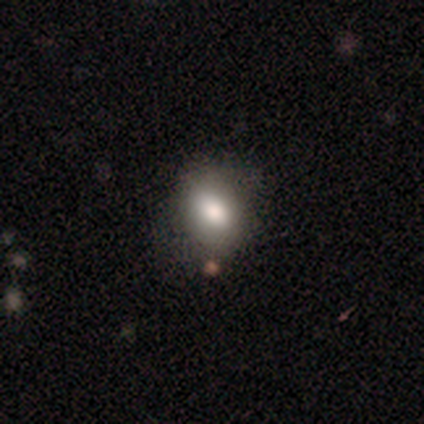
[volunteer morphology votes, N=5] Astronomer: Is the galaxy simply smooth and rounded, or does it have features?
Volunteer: smooth — 80%.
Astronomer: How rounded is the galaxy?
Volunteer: round — 50%, tied with in between at 50%.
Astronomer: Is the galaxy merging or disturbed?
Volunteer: none — 100%.